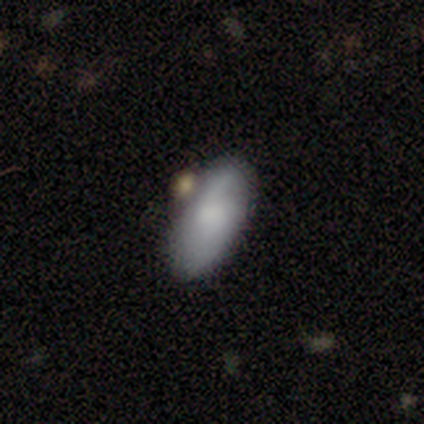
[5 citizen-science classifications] This is clearly a smooth galaxy (100%). How rounded: clearly in between (100%). Merging: clearly none (100%).